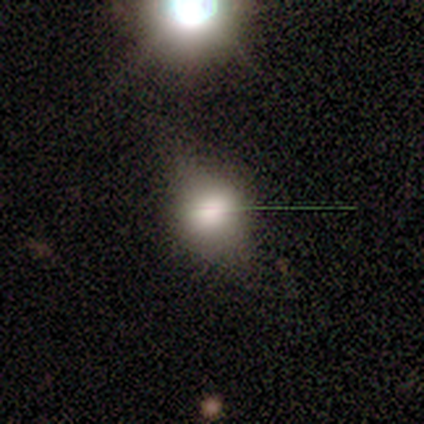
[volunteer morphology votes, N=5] A smooth galaxy with no disk features (80%) that is in between round and cigar-shaped (75%). Merging: minor disturbance (40%, tied with major disturbance).